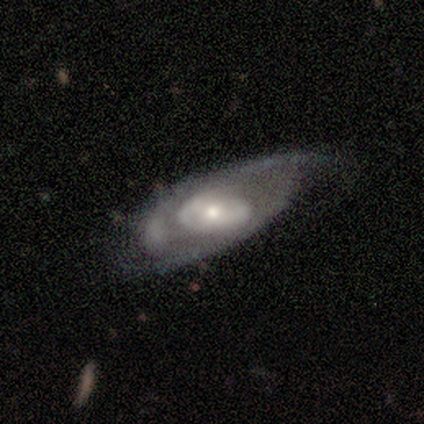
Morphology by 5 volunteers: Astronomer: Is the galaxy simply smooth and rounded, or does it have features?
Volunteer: featured or disk — 80%.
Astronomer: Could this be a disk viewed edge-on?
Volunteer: no — 100%.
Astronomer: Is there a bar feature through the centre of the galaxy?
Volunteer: no — 75%.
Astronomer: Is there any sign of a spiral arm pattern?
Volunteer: yes — 75%.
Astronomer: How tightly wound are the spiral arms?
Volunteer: medium — 67%.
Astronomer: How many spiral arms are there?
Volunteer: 2 — 67%.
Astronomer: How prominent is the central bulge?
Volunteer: moderate — 75%.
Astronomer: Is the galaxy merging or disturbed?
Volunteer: none — 40%, tied with minor disturbance at 40%.